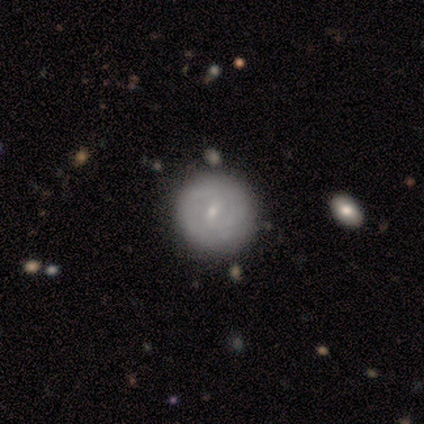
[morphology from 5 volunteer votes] Smooth or featured? 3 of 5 (60%) said smooth. How rounded? 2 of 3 (67%) said round. Merging? 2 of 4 (50%, tied with minor disturbance) said none.